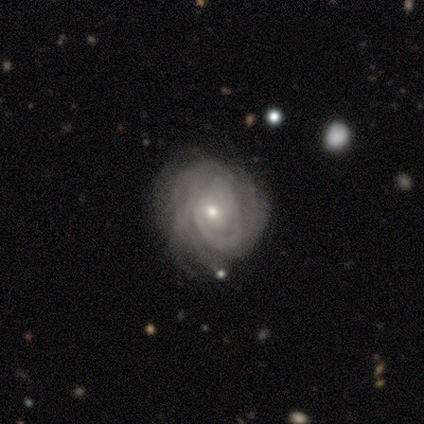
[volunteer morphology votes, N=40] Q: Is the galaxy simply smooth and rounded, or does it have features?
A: featured or disk — 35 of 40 (88%).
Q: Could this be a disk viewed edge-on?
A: no — 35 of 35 (100%).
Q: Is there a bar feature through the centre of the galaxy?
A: no — 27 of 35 (77%).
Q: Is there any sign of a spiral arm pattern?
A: yes — 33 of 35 (94%).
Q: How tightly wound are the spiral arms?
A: tight — 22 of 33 (67%).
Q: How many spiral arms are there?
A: can't tell — 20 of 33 (61%).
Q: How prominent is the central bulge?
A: small — 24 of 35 (69%).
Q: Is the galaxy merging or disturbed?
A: none — 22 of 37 (59%).